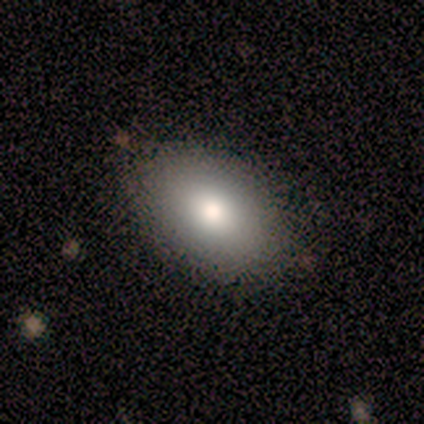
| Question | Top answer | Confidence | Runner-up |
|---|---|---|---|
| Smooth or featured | smooth | 100% | — |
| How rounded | in between | 100% | — |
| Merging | minor disturbance | 67% | none (33%) |